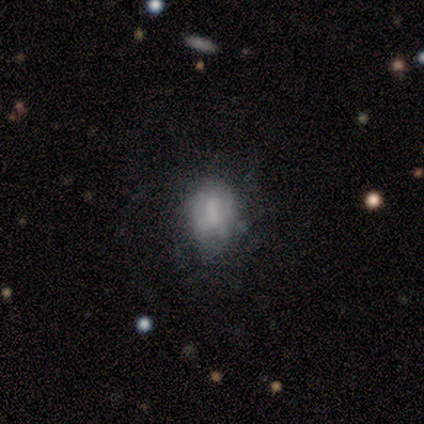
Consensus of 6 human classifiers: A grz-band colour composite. It shows a smooth galaxy with no disk features (83%) that is in between round and cigar-shaped (60%). Merging: none (67%).